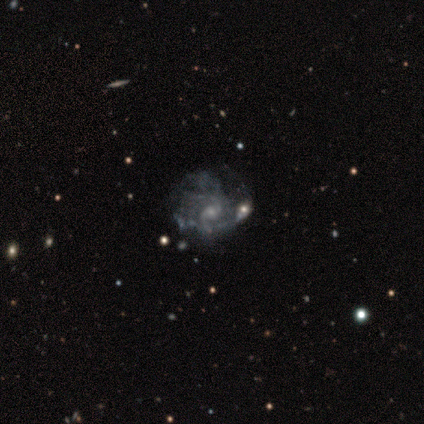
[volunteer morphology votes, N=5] Q: Smooth or featured?
A: featured or disk (100%)
Q: Edge-on disk?
A: no (80%); runner-up: yes (20%)
Q: Bar?
A: no (75%); runner-up: weak (25%)
Q: Spiral arms?
A: yes (100%)
Q: Spiral winding?
A: medium (75%); runner-up: tight (25%)
Q: Spiral arm count?
A: can't tell (50%); runner-up: 1 (25%)
Q: Bulge size?
A: small (75%); runner-up: moderate (25%)
Q: Merging?
A: none (60%); runner-up: minor disturbance (20%)